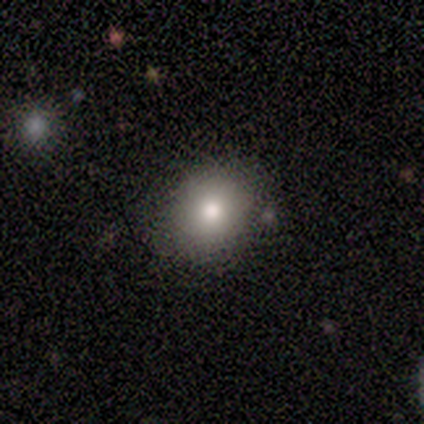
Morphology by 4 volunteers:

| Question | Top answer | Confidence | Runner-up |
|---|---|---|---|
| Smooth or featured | smooth | 75% | featured or disk (25%) |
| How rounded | round | 67% | in between (33%) |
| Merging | none | 75% | minor disturbance (25%) |